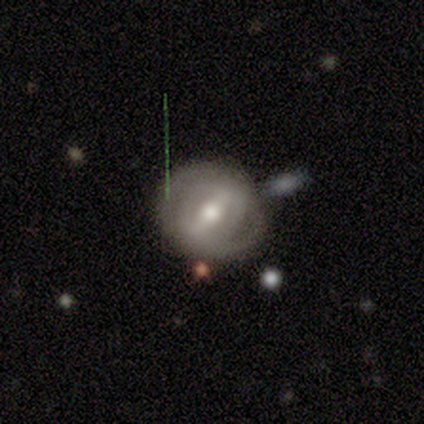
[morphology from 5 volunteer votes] smooth_or_featured: featured or disk (p=1.00)
disk_edge_on: no (p=0.80) [alt: yes p=0.20]
bar: strong (p=0.75) [alt: weak p=0.25]
has_spiral_arms: yes (p=1.00)
spiral_winding: tight (p=0.75) [alt: medium p=0.25]
spiral_arm_count: 2 (p=0.50) [tied with: can't tell p=0.50]
bulge_size: moderate (p=1.00)
merging: none (p=0.80) [alt: merger p=0.20]